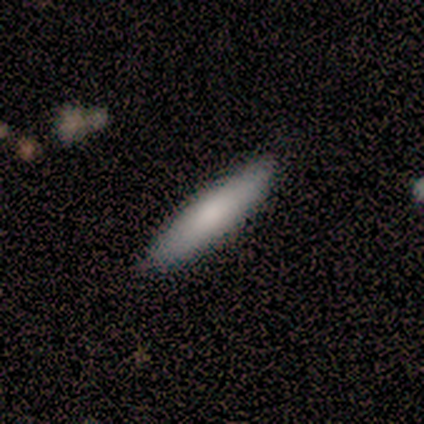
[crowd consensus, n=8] A smooth galaxy with no disk features (75%) that is cigar-shaped (83%).

Vote fractions:
- Smooth or featured? smooth: 75% / featured or disk: 25% / star or artifact: 0%
- How rounded? cigar-shaped: 83% / in between: 17% / round: 0%
- Merging? none: 100% / minor disturbance: 0% / major disturbance: 0% / merger: 0%